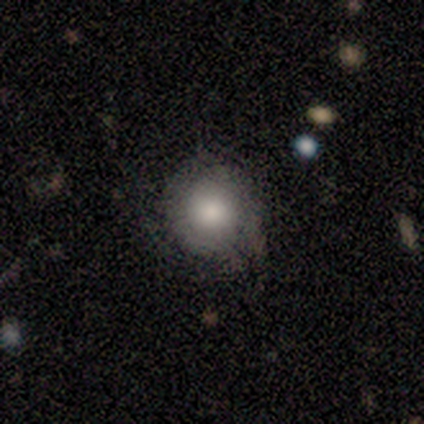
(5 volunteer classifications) Smooth or featured? smooth (60%)
How rounded? round (100%)
Merging? none (60%)